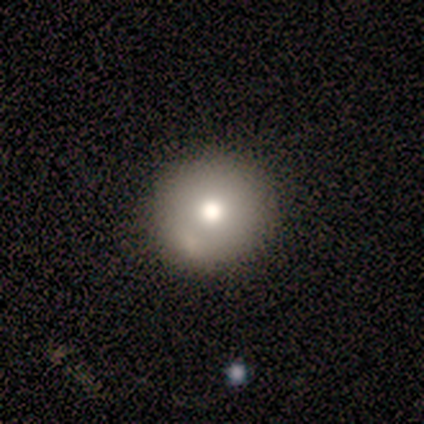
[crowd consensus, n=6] Smooth or featured?
  - smooth: 67% *
  - featured or disk: 17%
  - star or artifact: 17%
How rounded?
  - round: 75% *
  - cigar-shaped: 25%
  - in between: 0%
Merging?
  - none: 80% *
  - major disturbance: 20%
  - minor disturbance: 0%
  - merger: 0%